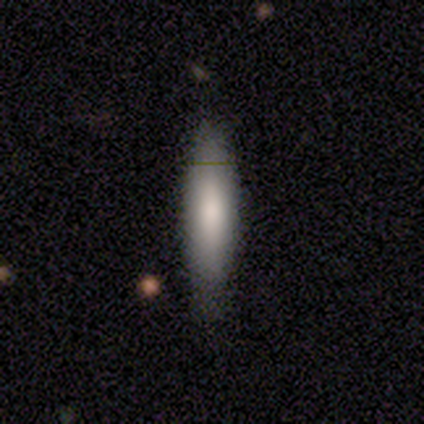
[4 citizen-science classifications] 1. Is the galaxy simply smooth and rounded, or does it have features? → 100% smooth, 0% featured or disk, 0% star or artifact.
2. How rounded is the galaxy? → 75% cigar-shaped, 25% in between, 0% round.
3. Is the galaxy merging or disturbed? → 75% none, 25% minor disturbance, 0% major disturbance, 0% merger.